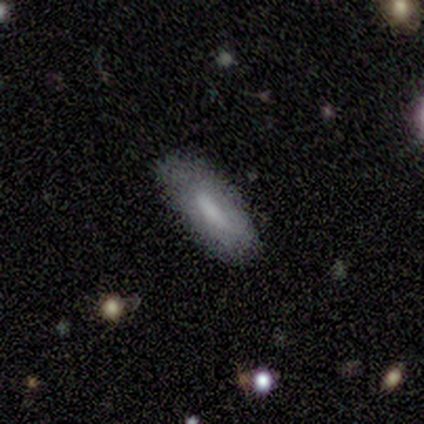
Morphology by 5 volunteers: Smooth or featured?
  - smooth: 80% *
  - featured or disk: 20%
  - star or artifact: 0%
How rounded?
  - in between: 75% *
  - cigar-shaped: 25%
  - round: 0%
Merging?
  - none: 80% *
  - minor disturbance: 20%
  - major disturbance: 0%
  - merger: 0%